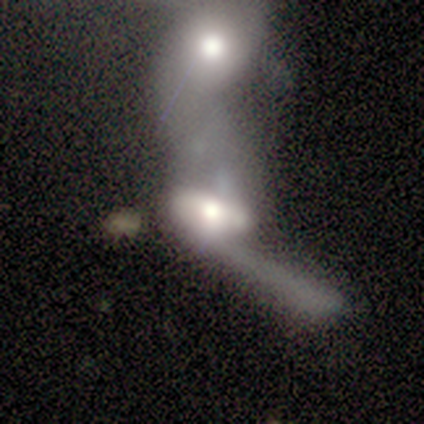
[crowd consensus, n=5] Smooth or featured? 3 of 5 (60%) said smooth. How rounded? 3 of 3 (100%) said in between. Merging? 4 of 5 (80%) said merger.